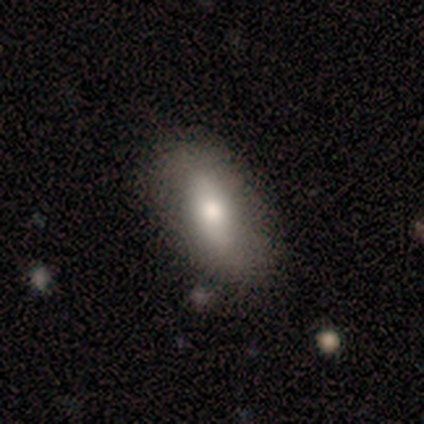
smooth-or-featured: smooth: 75% | star or artifact: 25% | featured or disk: 0%
  how-rounded: in between: 100% | round: 0% | cigar-shaped: 0%
  merging: none: 67% | minor disturbance: 33% | major disturbance: 0% | merger: 0%